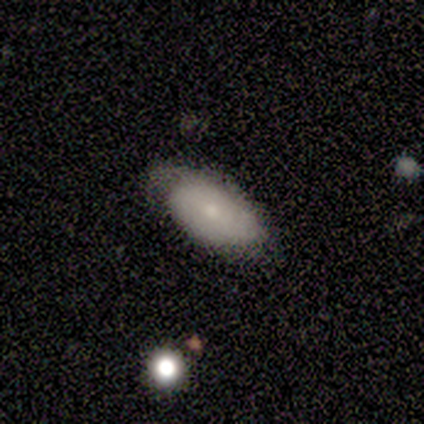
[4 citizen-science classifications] Morphology: type=smooth (100%); roundness=in between (100%); merging=none (50%, tied with major disturbance).